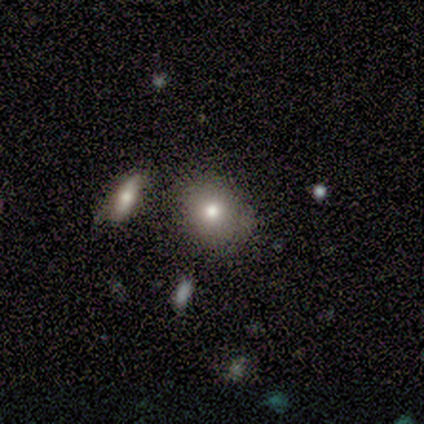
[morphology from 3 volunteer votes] smooth-or-featured: smooth: 67% | featured or disk: 33% | star or artifact: 0%
  how-rounded: round: 50% (tied) | in between: 50% (tied) | cigar-shaped: 0%
  merging: none: 100% | minor disturbance: 0% | major disturbance: 0% | merger: 0%